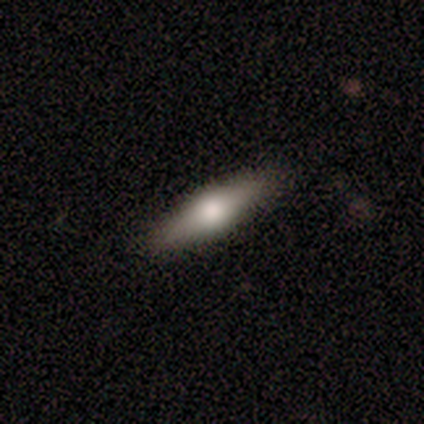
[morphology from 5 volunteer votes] A smooth galaxy with no disk features (60%) that is cigar-shaped (100%). Merging: none (100%).